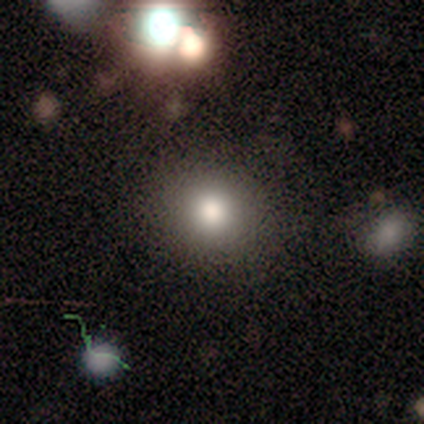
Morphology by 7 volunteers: Smooth or featured?
  - smooth: 43% * (tied)
  - featured or disk: 43% * (tied)
  - star or artifact: 14%
How rounded?
  - round: 100% *
  - in between: 0%
  - cigar-shaped: 0%
Merging?
  - none: 83% *
  - major disturbance: 17%
  - minor disturbance: 0%
  - merger: 0%